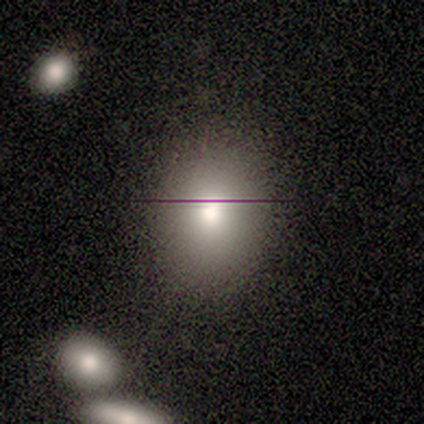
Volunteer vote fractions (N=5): Smooth or featured: smooth — 60% (star or artifact — 40%)
How rounded: round — 67% (in between — 33%)
Merging: none — 100%